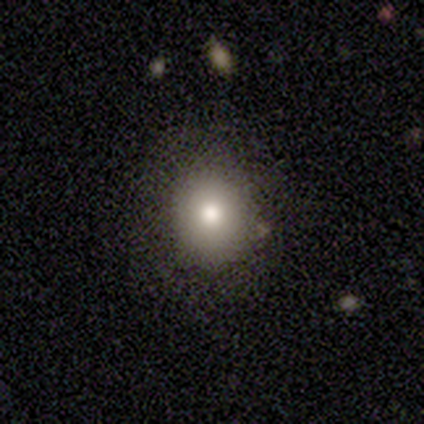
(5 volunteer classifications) smooth_or_featured: smooth (p=1.00)
how_rounded: round (p=0.60) [alt: in between p=0.40]
merging: none (p=1.00)